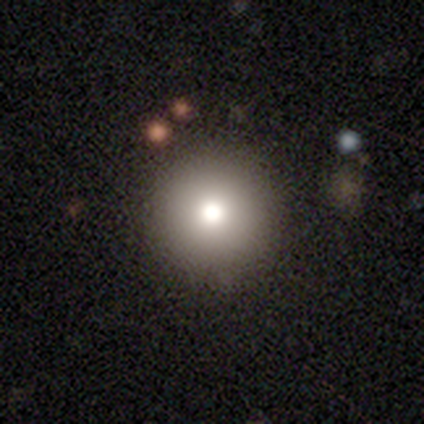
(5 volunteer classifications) Smooth or featured? smooth (100%)
How rounded? round (100%)
Merging? none (100%)